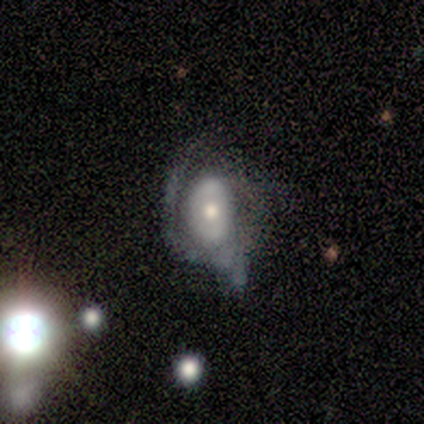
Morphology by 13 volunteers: This appears to be a featured or disk galaxy (69%) with no bar (78%), no spiral arms (56%) and a moderate central bulge (67%). Merging: minor disturbance (46%).